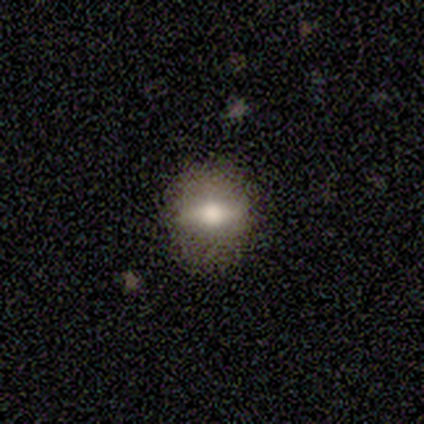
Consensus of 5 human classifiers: This is clearly a smooth galaxy (80%). How rounded: likely round (75%). Merging: clearly none (80%).